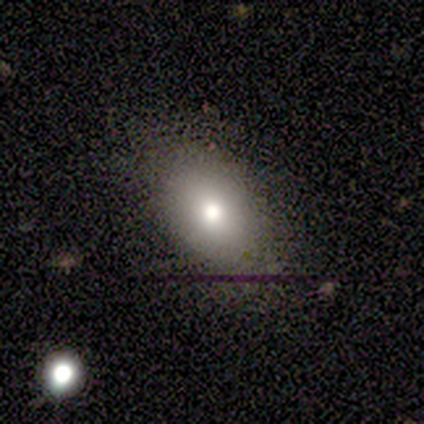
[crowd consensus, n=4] Overall: smooth (75%). How rounded: in between (100%). Merging: none (67%; minor disturbance 33%).